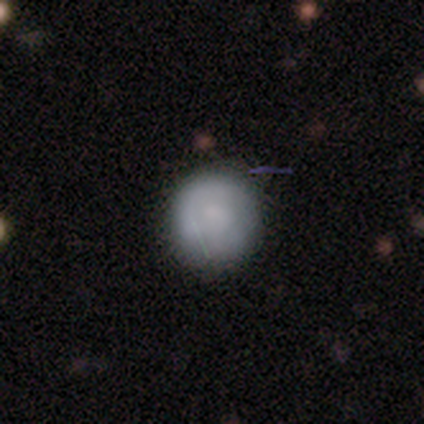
smooth_or_featured: smooth (p=0.76) [alt: featured or disk p=0.22]
how_rounded: round (p=0.94) [alt: in between p=0.06]
merging: none (p=0.57) [alt: minor disturbance p=0.10]